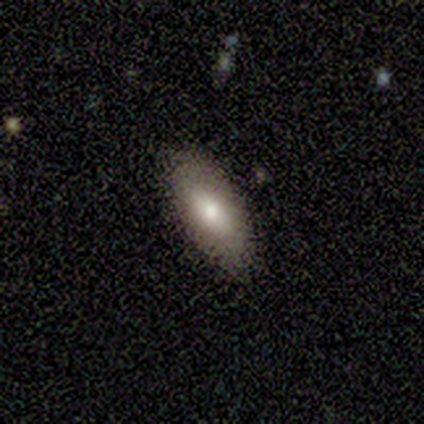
Smooth or featured? 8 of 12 (67%) said smooth. How rounded? 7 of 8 (88%) said in between. Merging? 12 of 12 (100%) said none.